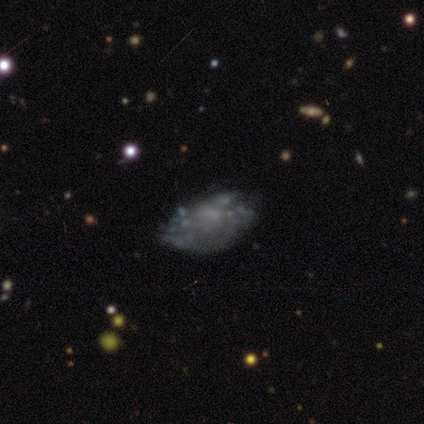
Smooth or featured? featured or disk (62%)
Edge-on disk? no (88%)
Bar? no (57%)
Spiral arms? no (71%)
Bulge size? none (57%)
Merging? none (55%)